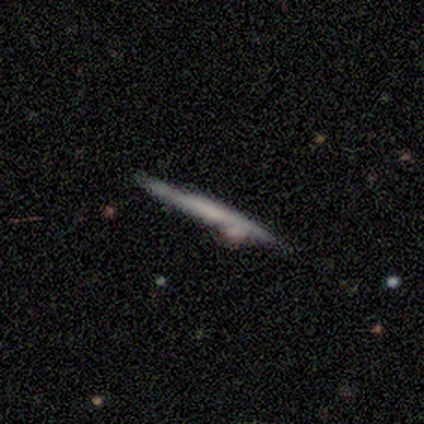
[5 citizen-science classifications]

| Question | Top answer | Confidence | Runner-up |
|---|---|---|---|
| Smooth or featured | featured or disk | 80% | smooth (20%) |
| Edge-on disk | yes | 100% | — |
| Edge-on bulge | none | 50% | tied: rounded (50%) |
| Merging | none | 100% | — |